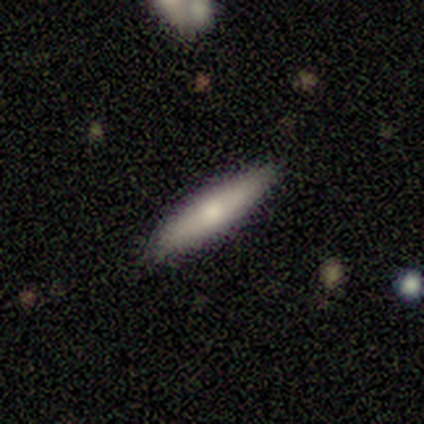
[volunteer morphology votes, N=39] Volunteers were most divided on "smooth or featured": smooth: 72%, featured or disk: 23%, star or artifact: 5%. More confident: how rounded — cigar-shaped (93%); merging — none (86%).